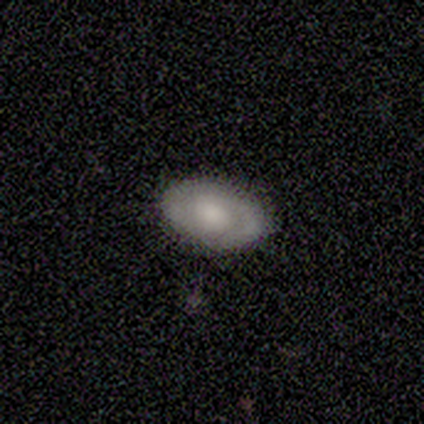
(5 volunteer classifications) smooth-or-featured: featured or disk: 80% | smooth: 20% | star or artifact: 0%
  disk-edge-on: no: 75% | yes: 25%
    bar: no: 67% | weak: 33% | strong: 0%
    has-spiral-arms: yes: 100% | no: 0%
      spiral-winding: tight: 100% | medium: 0% | loose: 0%
      spiral-arm-count: 1: 33% (tied) | 2: 33% (tied) | can't tell: 33% (tied) | 3: 0% | 4: 0% | more than 4: 0%
    bulge-size: moderate: 67% | small: 33% | dominant: 0% | large: 0% | none: 0%
  merging: none: 100% | minor disturbance: 0% | major disturbance: 0% | merger: 0%